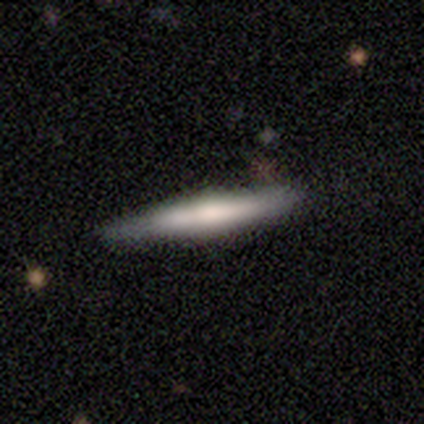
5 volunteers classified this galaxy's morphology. Smooth or featured? 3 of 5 (60%) said featured or disk. Edge-on disk? 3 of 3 (100%) said yes. Edge-on bulge? 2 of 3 (67%) said none. Merging? 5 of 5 (100%) said none.